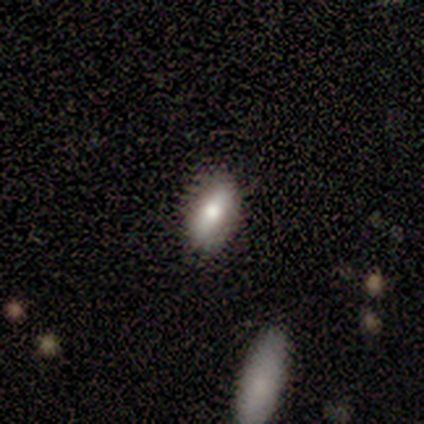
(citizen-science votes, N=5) Volunteers were most divided on "smooth or featured": smooth: 60%, featured or disk: 20%, star or artifact: 20%. More confident: how rounded — in between (100%); merging — none (100%).